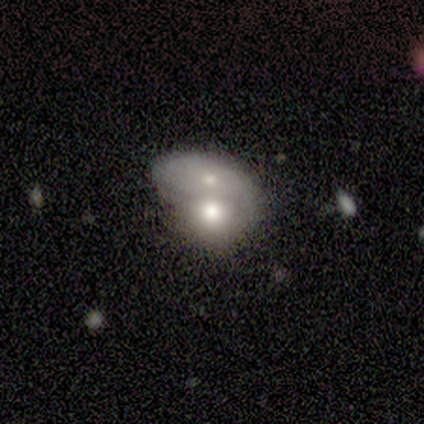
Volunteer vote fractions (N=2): smooth-or-featured: smooth: 100% | featured or disk: 0% | star or artifact: 0%
  how-rounded: in between: 100% | round: 0% | cigar-shaped: 0%
  merging: minor disturbance: 50% (tied) | merger: 50% (tied) | none: 0% | major disturbance: 0%